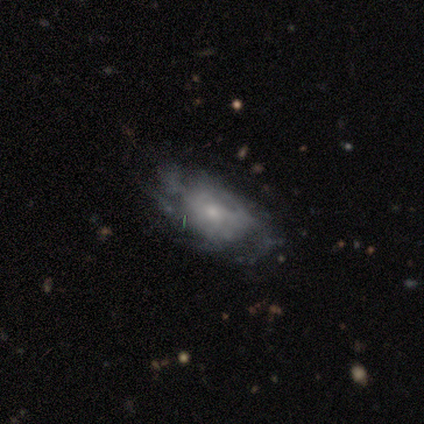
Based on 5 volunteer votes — This appears to be a featured or disk galaxy (60%) with no bar (100%), no spiral arms (67%) and a small central bulge (67%). Merging: none (75%).